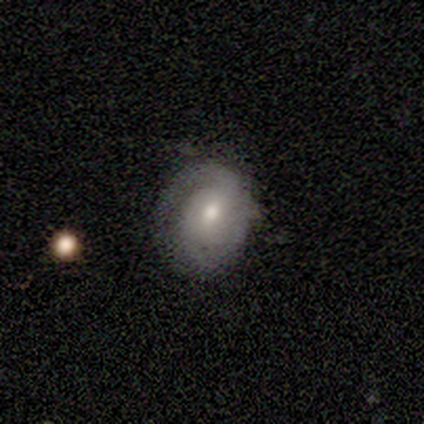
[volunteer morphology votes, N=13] type=smooth (69%); roundness=round (56%); merging=minor disturbance (50%).